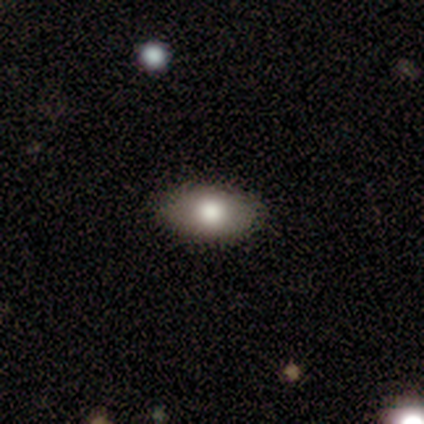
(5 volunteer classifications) A smooth galaxy with no disk features (100%) that is in between round and cigar-shaped (100%). Merging: none (100%).